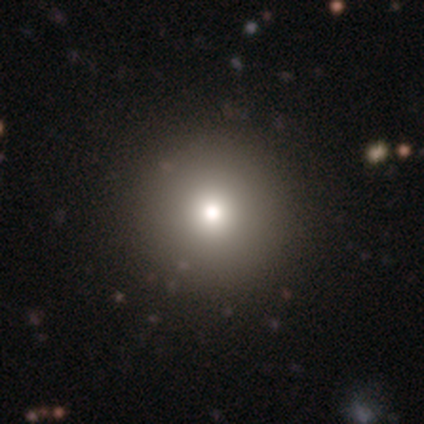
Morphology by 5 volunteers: This is clearly a smooth galaxy (100%). How rounded: clearly round (100%). Merging: clearly none (100%).